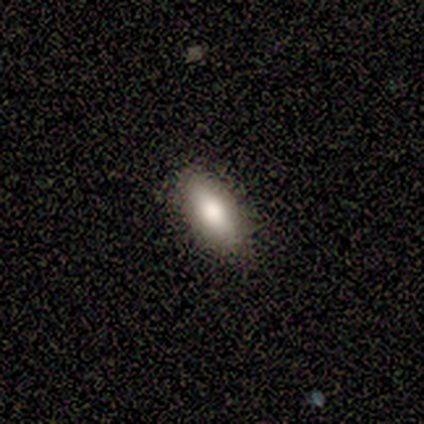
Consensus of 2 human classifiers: Smooth or featured?
  - smooth: 50% * (tied)
  - featured or disk: 50% * (tied)
  - star or artifact: 0%
How rounded?
  - in between: 100% *
  - round: 0%
  - cigar-shaped: 0%
Merging?
  - none: 50% * (tied)
  - minor disturbance: 50% * (tied)
  - major disturbance: 0%
  - merger: 0%